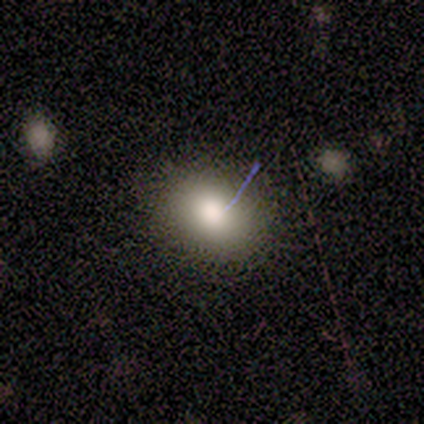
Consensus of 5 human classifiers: Q: Smooth or featured?
A: star or artifact (60%); runner-up: smooth (40%)